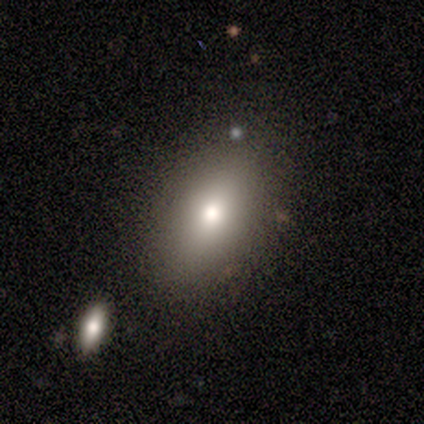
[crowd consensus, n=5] This appears to be a smooth galaxy with no disk features (80%) that is in between round and cigar-shaped (100%). Merging: none (80%).